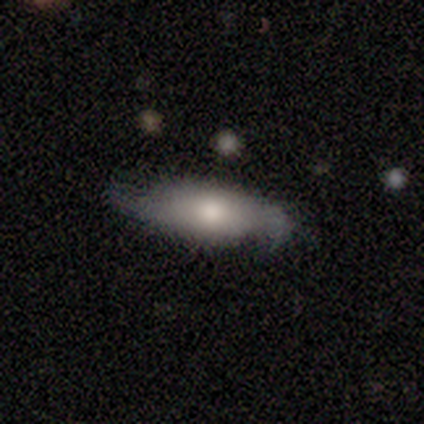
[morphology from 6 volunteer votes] Overall: featured or disk (67%; smooth 33%). Edge-on disk: no (100%). Bar: no (75%). Spiral arms: yes (50%, tied with no). Spiral arm count: 2 (50%, tied with can't tell). Spiral winding: loose (100%). Bulge size: moderate (50%; large 25%). Merging: none (50%; minor disturbance 33%).